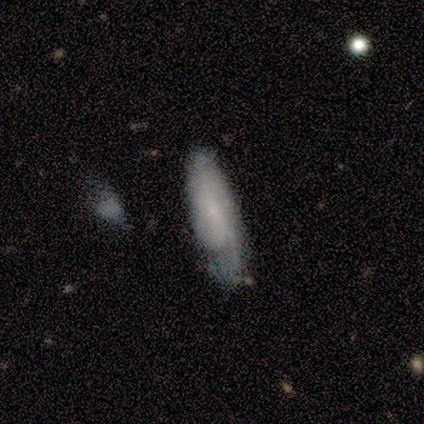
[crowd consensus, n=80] Smooth or featured? featured or disk (54%)
Edge-on disk? no (88%)
Bar? no (61%)
Spiral arms? yes (84%)
Spiral winding? medium (44%)
Spiral arm count? can't tell (41%)
Bulge size? small (87%)
Merging? none (44%)